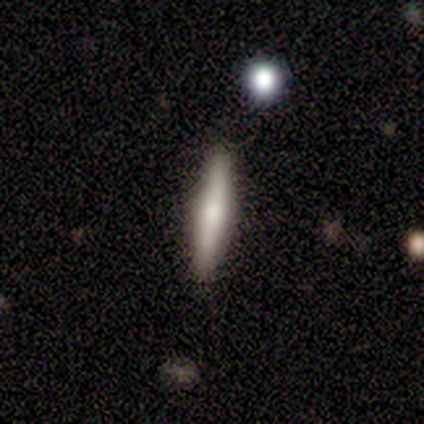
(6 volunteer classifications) Smooth or featured?
  - smooth: 67% *
  - featured or disk: 33%
  - star or artifact: 0%
How rounded?
  - cigar-shaped: 100% *
  - round: 0%
  - in between: 0%
Merging?
  - none: 83% *
  - minor disturbance: 17%
  - major disturbance: 0%
  - merger: 0%